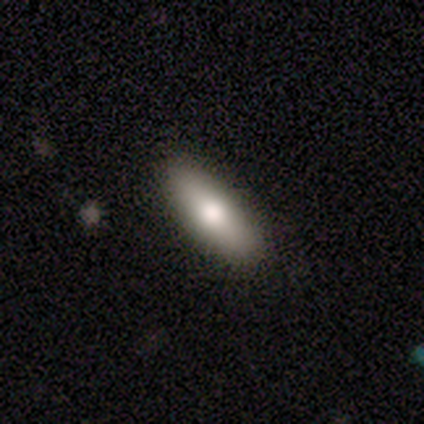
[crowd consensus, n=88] Smooth or featured? smooth (80%)
How rounded? in between (63%)
Merging? none (94%)